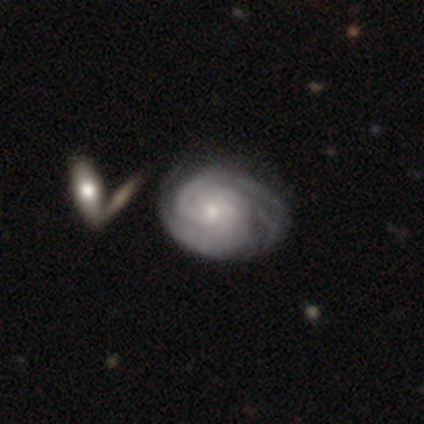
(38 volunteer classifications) Q: Smooth or featured?
A: featured or disk (84%); runner-up: smooth (11%)
Q: Edge-on disk?
A: no (100%)
Q: Bar?
A: no (88%); runner-up: weak (12%)
Q: Spiral arms?
A: yes (100%)
Q: Spiral winding?
A: tight (88%); runner-up: medium (12%)
Q: Spiral arm count?
A: can't tell (47%); runner-up: 3 (28%)
Q: Bulge size?
A: small (72%); runner-up: moderate (22%)
Q: Merging?
A: none (36%); runner-up: minor disturbance (19%)